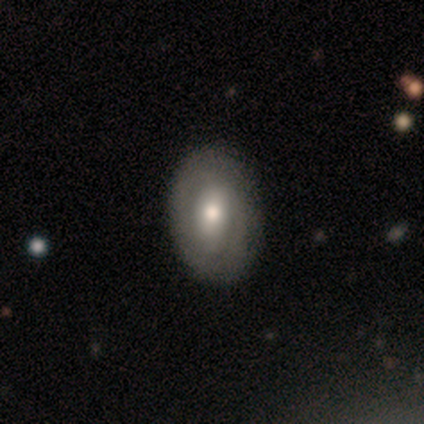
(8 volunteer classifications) Q: Smooth or featured?
A: featured or disk (88%); runner-up: star or artifact (12%)
Q: Edge-on disk?
A: no (100%)
Q: Bar?
A: no (57%); runner-up: strong (29%)
Q: Spiral arms?
A: no (57%); runner-up: yes (43%)
Q: Bulge size?
A: moderate (71%); runner-up: small (29%)
Q: Merging?
A: none (86%); runner-up: minor disturbance (14%)